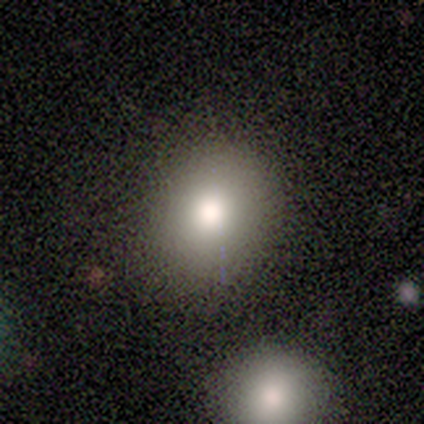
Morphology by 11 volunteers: smooth_or_featured: smooth (p=0.82) [alt: featured or disk p=0.09]
how_rounded: round (p=0.67) [alt: in between p=0.33]
merging: none (p=0.90) [alt: merger p=0.10]